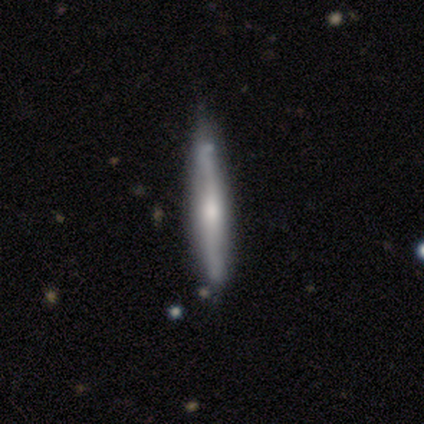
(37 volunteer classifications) A featured or disk galaxy (65%) viewed edge-on (100%) with a rounded central bulge (88%). Merging: none (42%).